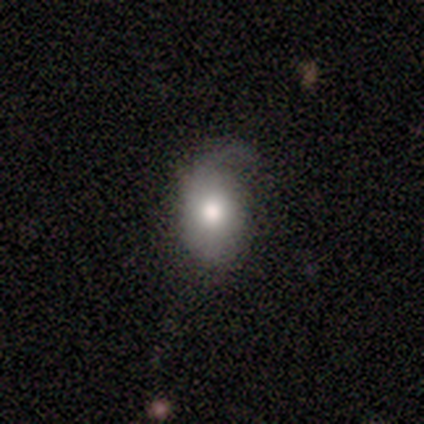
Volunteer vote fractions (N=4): Q: Smooth or featured?
A: smooth (50%); runner-up: featured or disk (25%)
Q: How rounded?
A: in between (100%)
Q: Merging?
A: minor disturbance (67%); runner-up: major disturbance (33%)